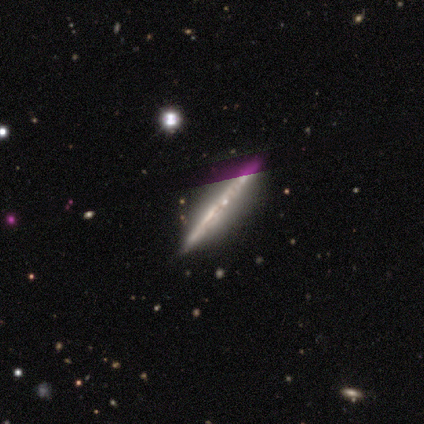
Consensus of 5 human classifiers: smooth_or_featured: featured or disk (p=0.80) [alt: star or artifact p=0.20]
disk_edge_on: yes (p=1.00)
edge_on_bulge: none (p=0.75) [alt: rounded p=0.25]
merging: none (p=1.00)